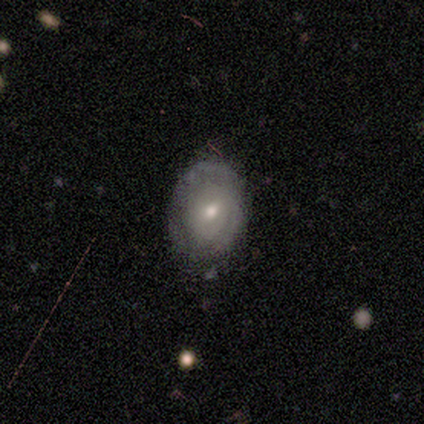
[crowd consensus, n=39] This appears to be a featured or disk galaxy (69%) with no bar (58%), no spiral arms (58%) and a moderate central bulge (62%). Merging: none (58%).